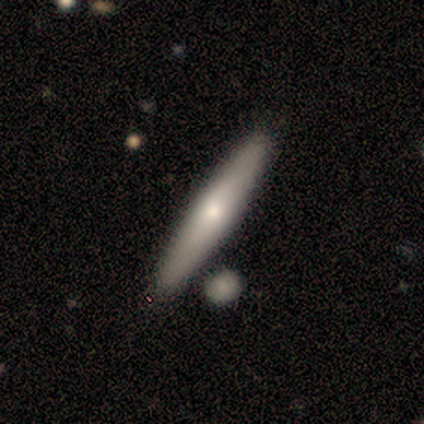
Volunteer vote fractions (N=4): This appears to be a smooth galaxy with no disk features (50%) that is cigar-shaped (100%). Merging: none (100%).